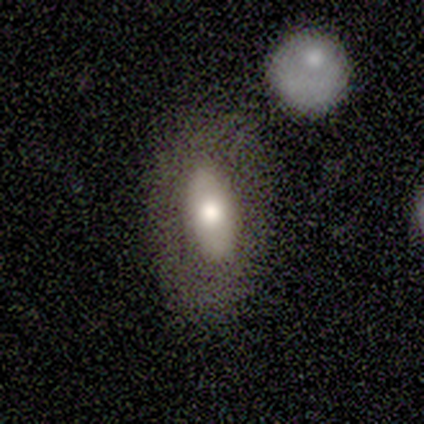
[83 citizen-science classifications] Smooth or featured?
  - smooth: 65% *
  - featured or disk: 28%
  - star or artifact: 7%
How rounded?
  - in between: 89% *
  - cigar-shaped: 9%
  - round: 2%
Merging?
  - none: 68% *
  - merger: 16%
  - minor disturbance: 10%
  - major disturbance: 6%